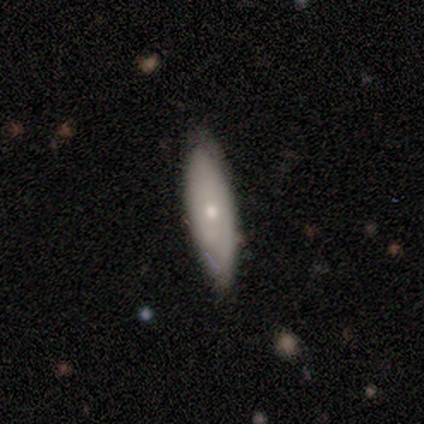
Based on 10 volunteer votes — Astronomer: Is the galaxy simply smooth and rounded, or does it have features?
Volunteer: smooth — 60% (runner-up: featured or disk, 40%).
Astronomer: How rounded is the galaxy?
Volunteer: in between — 50%, tied with cigar-shaped at 50%.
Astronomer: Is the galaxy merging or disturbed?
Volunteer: none — 60% (runner-up: minor disturbance, 40%).